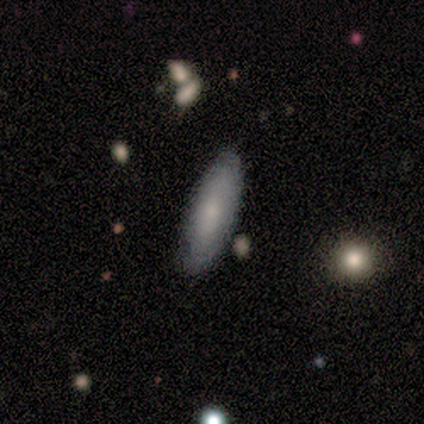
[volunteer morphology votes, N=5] smooth_or_featured: smooth (p=0.60) [alt: featured or disk p=0.40]
how_rounded: in between (p=0.67) [alt: cigar-shaped p=0.33]
merging: none (p=1.00)